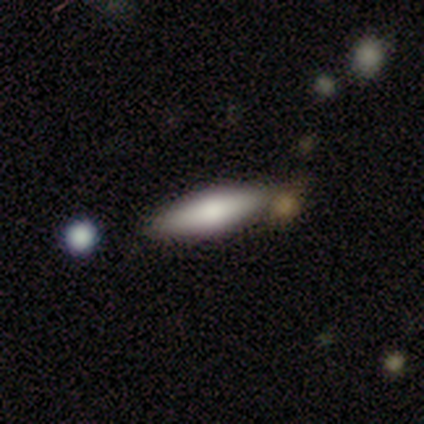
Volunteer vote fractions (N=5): smooth_or_featured: smooth (p=0.80) [alt: featured or disk p=0.20]
how_rounded: cigar-shaped (p=1.00)
merging: none (p=0.80) [alt: merger p=0.20]